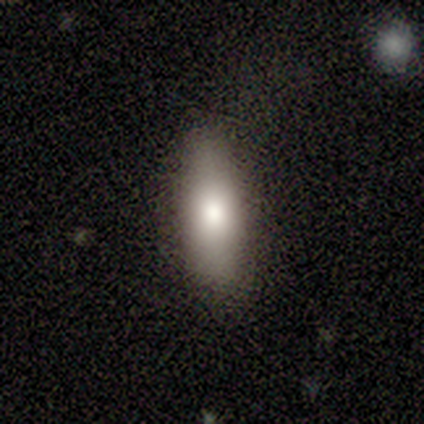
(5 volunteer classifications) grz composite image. It shows a smooth galaxy with no disk features (80%) that is in between round and cigar-shaped (75%). Merging: none (60%).